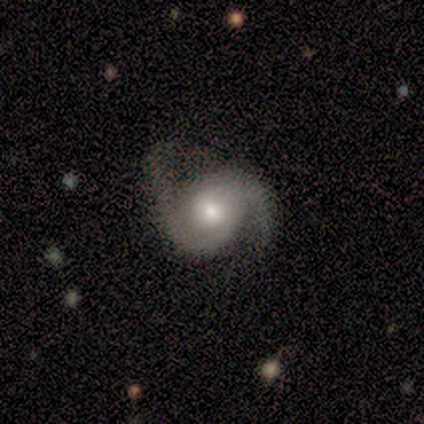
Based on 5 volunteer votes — Smooth or featured: featured or disk — 100%
Edge-on disk: no — 100%
Bar: no — 100%
Spiral arms: yes — 100%
Spiral winding: medium — 80% (loose — 20%)
Spiral arm count: 2 — 100%
Bulge size: moderate — 80% (small — 20%)
Merging: none — 60% (minor disturbance — 40%)